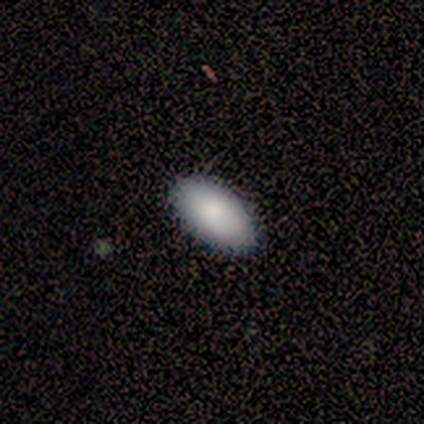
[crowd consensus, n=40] Morphology: type=smooth (95%); roundness=in between (97%); merging=none (87%).